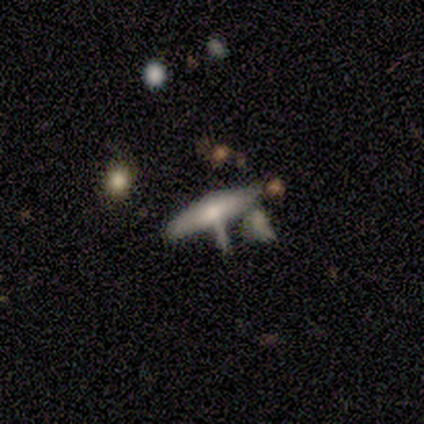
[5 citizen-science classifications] Smooth or featured? 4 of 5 (80%) said smooth. How rounded? 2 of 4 (50%, tied with cigar-shaped) said in between. Merging? 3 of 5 (60%) said none.